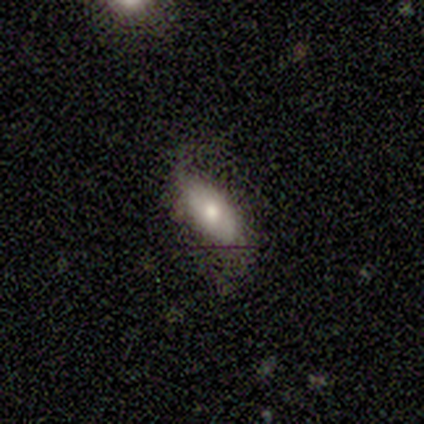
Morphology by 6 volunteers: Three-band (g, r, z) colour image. It shows a smooth galaxy with no disk features (67%) that is in between round and cigar-shaped (75%). Merging: none (67%).